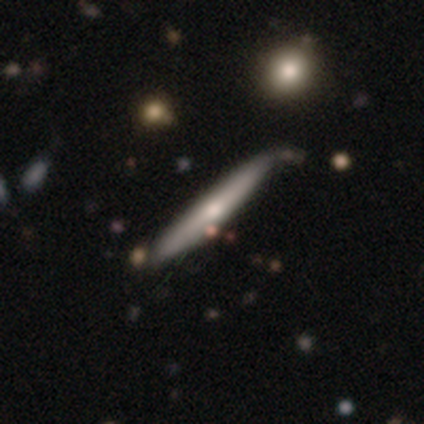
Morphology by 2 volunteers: A smooth galaxy with no disk features (50%, tied with featured or disk) that is cigar-shaped (100%). Merging: none (100%).